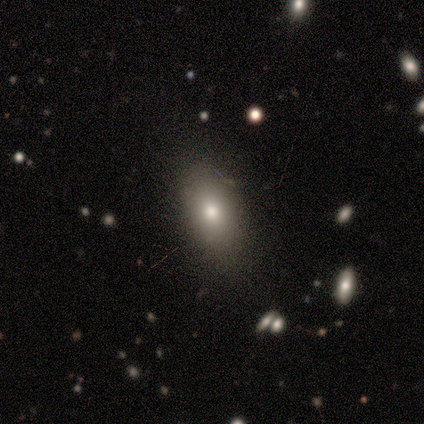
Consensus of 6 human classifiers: Volunteers were most divided on "smooth or featured": smooth: 67%, star or artifact: 33%, featured or disk: 0%. More confident: how rounded — in between (100%); merging — none (100%).